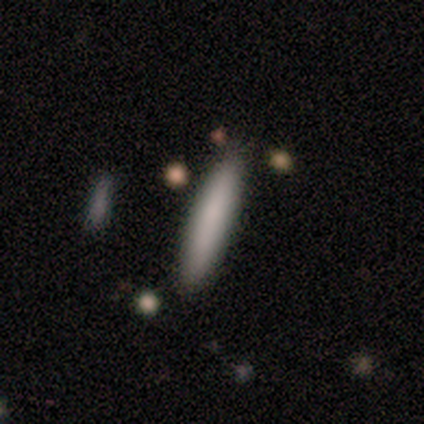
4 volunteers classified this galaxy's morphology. A smooth galaxy with no disk features (75%) that is cigar-shaped (100%).

Vote fractions:
- Smooth or featured? smooth: 75% / star or artifact: 25% / featured or disk: 0%
- How rounded? cigar-shaped: 100% / round: 0% / in between: 0%
- Merging? none: 67% / minor disturbance: 33% / major disturbance: 0% / merger: 0%